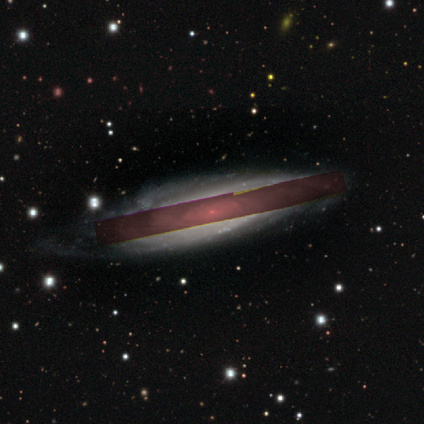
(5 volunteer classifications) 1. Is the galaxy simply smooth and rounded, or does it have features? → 60% featured or disk, 20% smooth, 20% star or artifact.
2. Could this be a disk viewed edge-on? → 67% no, 33% yes.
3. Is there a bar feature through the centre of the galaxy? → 50% weak (tied), 50% no (tied), 0% strong.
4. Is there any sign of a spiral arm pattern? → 100% yes, 0% no.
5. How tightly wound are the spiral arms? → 50% tight (tied), 50% medium (tied), 0% loose.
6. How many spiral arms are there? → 50% 2 (tied), 50% can't tell (tied), 0% 1, 0% 3, 0% 4, 0% more than 4.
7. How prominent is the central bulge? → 100% small, 0% dominant, 0% large, 0% moderate, 0% none.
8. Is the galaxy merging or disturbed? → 50% minor disturbance, 25% none, 25% major disturbance, 0% merger.